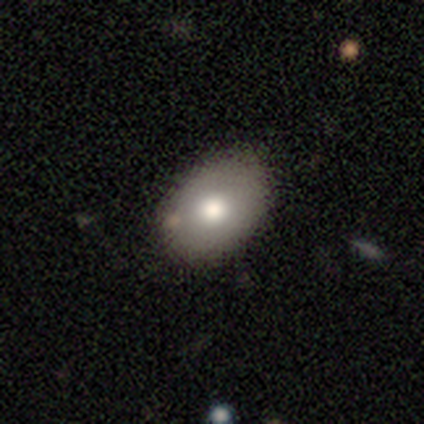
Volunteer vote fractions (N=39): smooth 74%, featured or disk 21%, star or artifact 5%. Down the decision tree: how rounded — in between (79%); merging — none (81%).